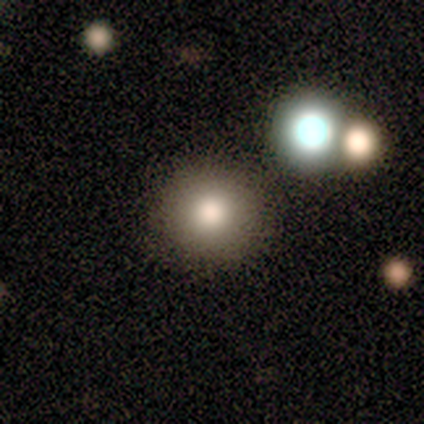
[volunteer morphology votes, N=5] Volunteers were most divided on "merging": none: 75%, merger: 25%, minor disturbance: 0%, major disturbance: 0%. More confident: how rounded — round (100%); smooth or featured — smooth (80%).